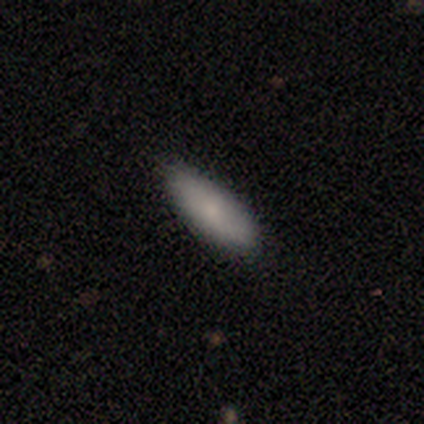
This appears to be a smooth galaxy with no disk features (100%) that is in between round and cigar-shaped (75%). Merging: none (100%).